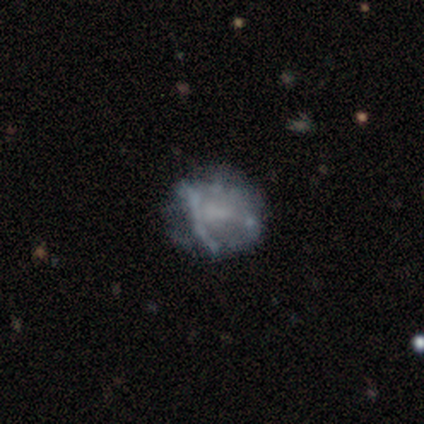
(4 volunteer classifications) A smooth galaxy with no disk features (50%, tied with featured or disk) that is round (50%, tied with in between).

Vote fractions:
- Smooth or featured? smooth: 50% (tied) / featured or disk: 50% (tied) / star or artifact: 0%
- How rounded? round: 50% (tied) / in between: 50% (tied) / cigar-shaped: 0%
- Merging? minor disturbance: 50% / none: 25% / major disturbance: 25% / merger: 0%